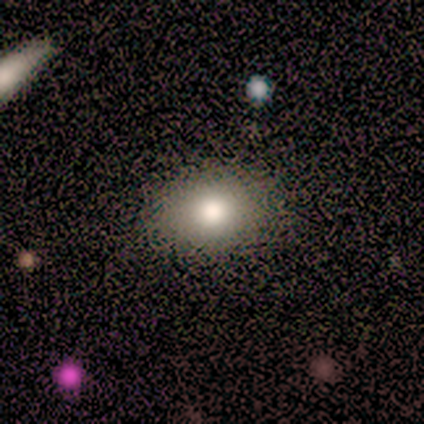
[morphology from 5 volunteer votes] Q: Smooth or featured?
A: smooth (80%); runner-up: star or artifact (20%)
Q: How rounded?
A: round (50%); tied with: in between (50%)
Q: Merging?
A: none (75%); runner-up: major disturbance (25%)